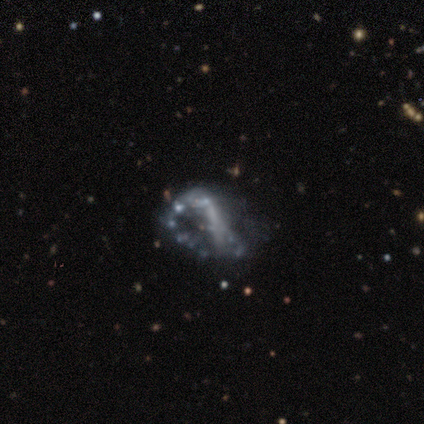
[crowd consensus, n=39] smooth_or_featured: featured or disk (p=0.77) [alt: star or artifact p=0.18]
disk_edge_on: no (p=1.00)
bar: no (p=0.70) [alt: strong p=0.20]
has_spiral_arms: no (p=0.80) [alt: yes p=0.20]
bulge_size: none (p=0.83) [alt: moderate p=0.10]
merging: major disturbance (p=0.44) [alt: none p=0.38]